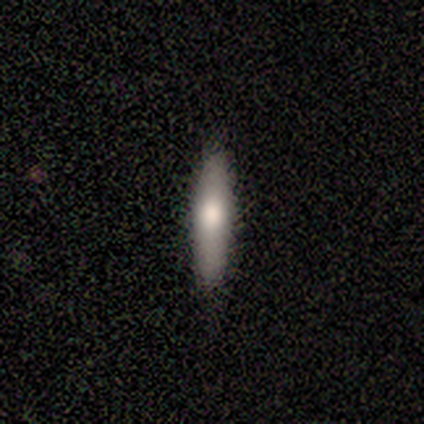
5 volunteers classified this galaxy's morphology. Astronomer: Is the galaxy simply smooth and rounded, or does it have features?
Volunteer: smooth — 80%.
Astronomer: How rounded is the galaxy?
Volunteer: cigar-shaped — 100%.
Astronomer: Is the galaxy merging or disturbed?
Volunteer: none — 100%.